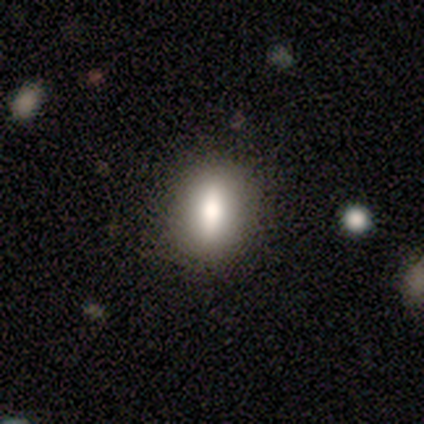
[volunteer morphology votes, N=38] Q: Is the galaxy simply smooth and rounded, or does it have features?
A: smooth — 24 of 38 (63%).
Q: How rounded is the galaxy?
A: in between — 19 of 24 (79%).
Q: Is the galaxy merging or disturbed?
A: none — 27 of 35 (77%).